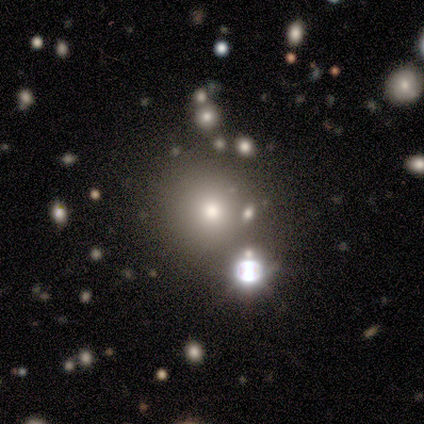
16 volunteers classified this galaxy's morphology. Overall: smooth (50%; star or artifact 38%). How rounded: round (88%). Merging: none (60%; merger 20%).